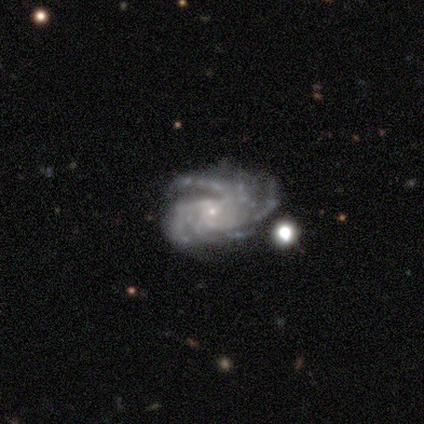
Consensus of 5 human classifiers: Volunteers were most divided on "spiral arm count" (2-way tie): more than 4: 40%, can't tell: 40%, 3: 20%, 1: 0%, 2: 0%, 4: 0%. More confident: smooth or featured — featured or disk (100%); edge-on disk — no (100%); bar — no (100%); spiral arms — yes (100%); bulge size — small (100%); spiral winding — tight (80%); merging — minor disturbance (60%).